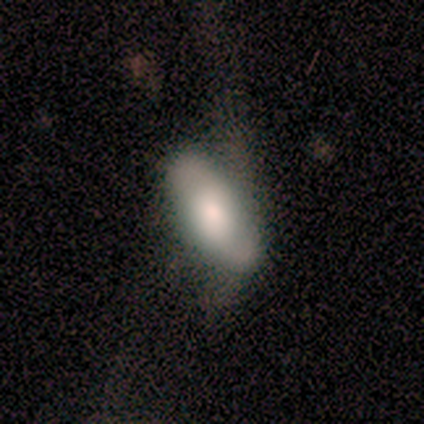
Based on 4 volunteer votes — Smooth or featured: smooth — 100%
How rounded: in between — 100%
Merging: none — 50% (minor disturbance — 25%)